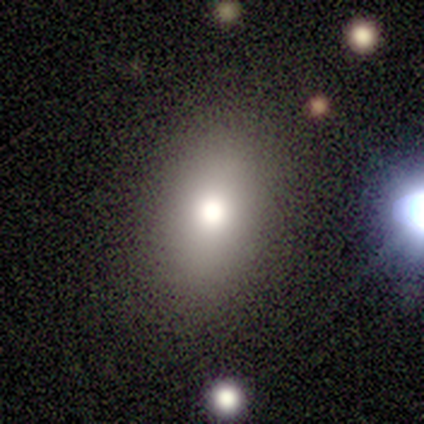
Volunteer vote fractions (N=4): This is clearly a smooth galaxy (100%). How rounded: likely in between (75%). Merging: likely none (75%).